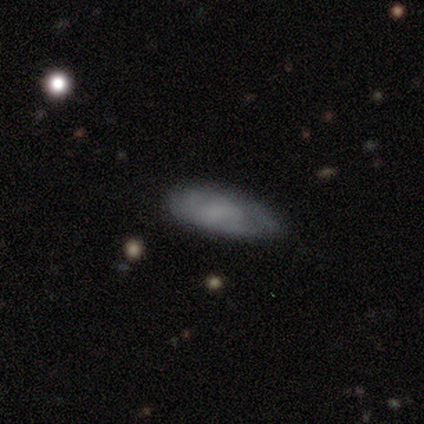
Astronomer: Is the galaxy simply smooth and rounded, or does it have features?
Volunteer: smooth — 58%.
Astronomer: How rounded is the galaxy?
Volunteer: in between — 86%.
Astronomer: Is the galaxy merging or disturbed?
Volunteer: none — 60% (runner-up: minor disturbance, 40%).